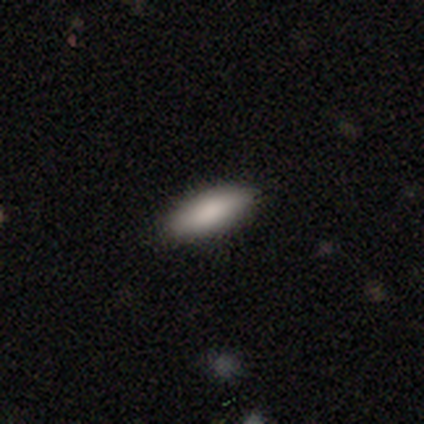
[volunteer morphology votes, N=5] A smooth galaxy with no disk features (80%) that is in between round and cigar-shaped (100%). Merging: none (75%).